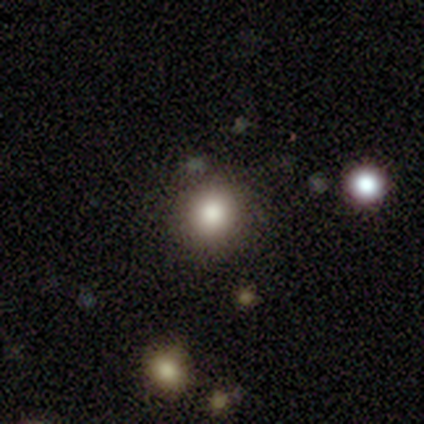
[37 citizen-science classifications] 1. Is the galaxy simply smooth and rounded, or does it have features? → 81% smooth, 11% star or artifact, 8% featured or disk.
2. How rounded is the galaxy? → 97% round, 3% in between, 0% cigar-shaped.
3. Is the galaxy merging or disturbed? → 88% none, 9% minor disturbance, 3% merger, 0% major disturbance.